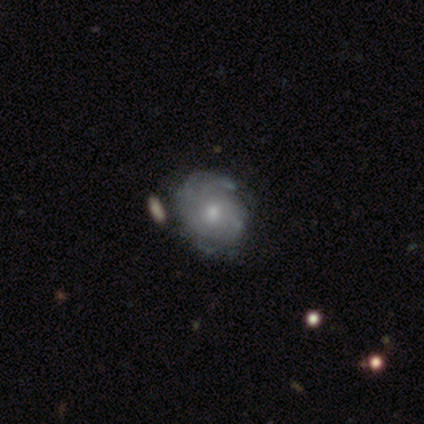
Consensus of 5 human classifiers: smooth_or_featured: featured or disk (p=0.80) [alt: star or artifact p=0.20]
disk_edge_on: no (p=1.00)
bar: no (p=0.75) [alt: weak p=0.25]
has_spiral_arms: yes (p=0.75) [alt: no p=0.25]
spiral_winding: tight (p=0.33) [tied with: medium p=0.33, loose p=0.33]
spiral_arm_count: 2 (p=1.00)
bulge_size: moderate (p=0.75) [alt: small p=0.25]
merging: none (p=0.75) [alt: major disturbance p=0.25]